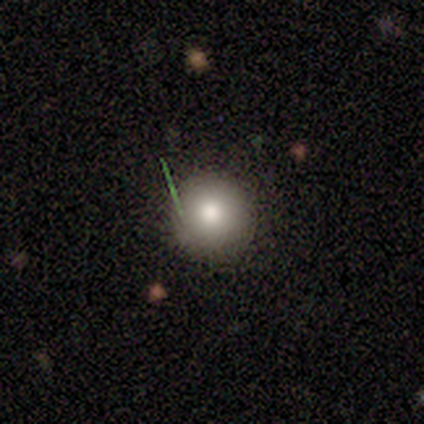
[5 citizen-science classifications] Q: Smooth or featured?
A: smooth (100%)
Q: How rounded?
A: round (100%)
Q: Merging?
A: none (100%)